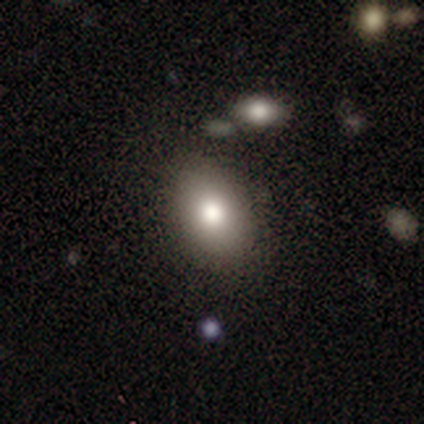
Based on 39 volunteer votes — Q: Smooth or featured?
A: smooth (79%); runner-up: featured or disk (15%)
Q: How rounded?
A: in between (68%); runner-up: round (32%)
Q: Merging?
A: none (84%); runner-up: minor disturbance (11%)